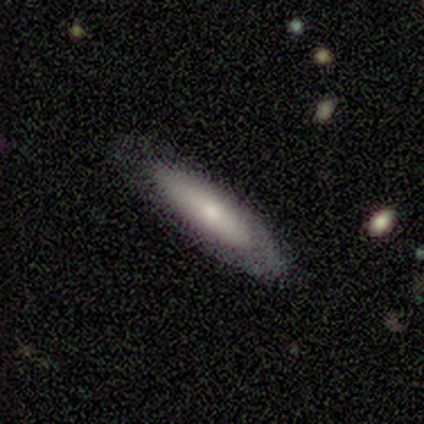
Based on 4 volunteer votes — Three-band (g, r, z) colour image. It shows a smooth galaxy with no disk features (50%, tied with featured or disk) that is in between round and cigar-shaped (50%, tied with cigar-shaped). Merging: none (75%).